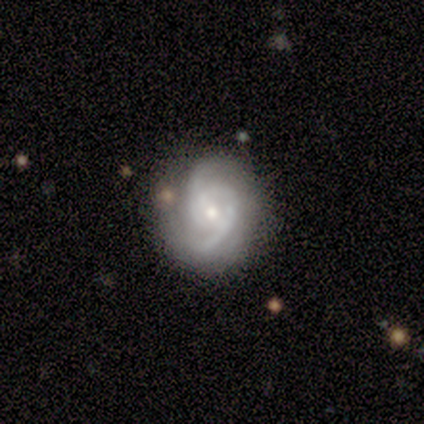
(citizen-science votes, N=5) Smooth or featured: featured or disk — 80% (star or artifact — 20%)
Edge-on disk: no — 100%
Bar: no — 100%
Spiral arms: yes — 75% (no — 25%)
Spiral winding: tight — 33% (tied with medium — 33%; loose — 33%)
Spiral arm count: 2 — 33% (tied with 3 — 33%; can't tell — 33%)
Bulge size: moderate — 50% (tied with small — 50%)
Merging: none — 100%